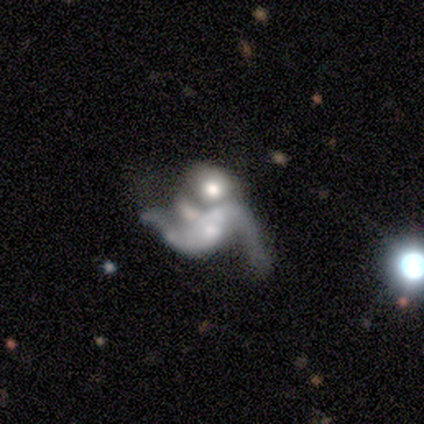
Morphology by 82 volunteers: A featured or disk galaxy (77%) with no bar (54%), 2 (84%) loose (91%) spiral arms (72%) and a moderate central bulge (39%).

Vote fractions:
- Smooth or featured? featured or disk: 77% / star or artifact: 13% / smooth: 10%
- Edge-on disk? no: 97% / yes: 3%
- Bar? no: 54% / weak: 25% / strong: 21%
- Spiral arms? yes: 72% / no: 28%
- Spiral winding? loose: 91% / medium: 7% / tight: 2%
- Spiral arm count? 2: 84% / 3: 7% / can't tell: 7% / 1: 2% / 4: 0% / more than 4: 0%
- Bulge size? moderate: 39% / small: 26% / none: 18% / large: 16% / dominant: 0%
- Merging? merger: 63% / major disturbance: 17% / none: 10% / minor disturbance: 10%